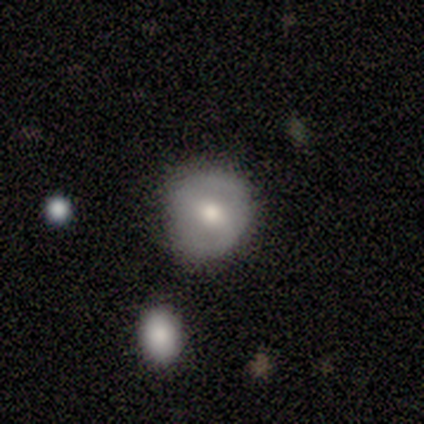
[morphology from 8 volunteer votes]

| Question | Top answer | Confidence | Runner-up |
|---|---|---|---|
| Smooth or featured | smooth | 75% | featured or disk (25%) |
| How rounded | round | 83% | in between (17%) |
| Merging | none | 88% | minor disturbance (12%) |